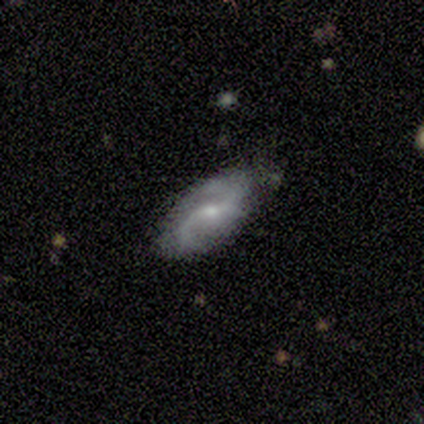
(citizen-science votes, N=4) featured or disk 100%, smooth 0%, star or artifact 0%. Down the decision tree: edge-on disk — no (100%); bar — no (75%); spiral arms — yes (75%); spiral arm count — 2 (100%); spiral winding — loose (67%); bulge size — small (75%); merging — none (100%).